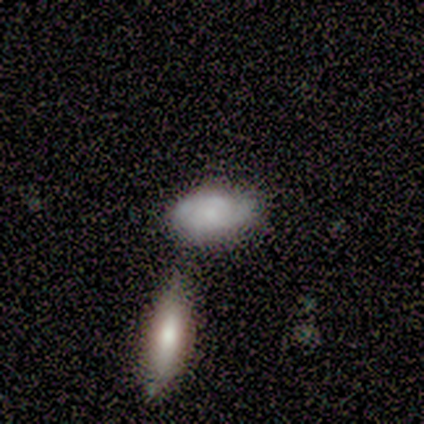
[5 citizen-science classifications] Q: Smooth or featured?
A: smooth (80%); runner-up: featured or disk (20%)
Q: How rounded?
A: in between (100%)
Q: Merging?
A: none (40%); runner-up: minor disturbance (20%)